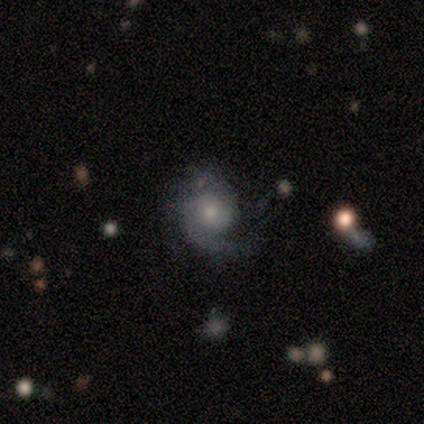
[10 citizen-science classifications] smooth-or-featured: featured or disk: 90% | smooth: 10% | star or artifact: 0%
  disk-edge-on: no: 100% | yes: 0%
    bar: no: 100% | strong: 0% | weak: 0%
    has-spiral-arms: yes: 78% | no: 22%
      spiral-winding: medium: 71% | tight: 14% | loose: 14%
      spiral-arm-count: 1: 57% | 2: 29% | can't tell: 14% | 3: 0% | 4: 0% | more than 4: 0%
    bulge-size: moderate: 56% | small: 44% | dominant: 0% | large: 0% | none: 0%
  merging: none: 60% | minor disturbance: 30% | major disturbance: 10% | merger: 0%